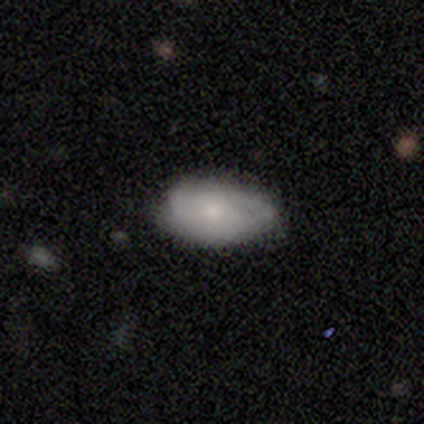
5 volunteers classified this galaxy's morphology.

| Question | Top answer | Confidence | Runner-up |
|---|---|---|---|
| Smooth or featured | smooth | 100% | — |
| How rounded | in between | 100% | — |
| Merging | none | 80% | major disturbance (20%) |